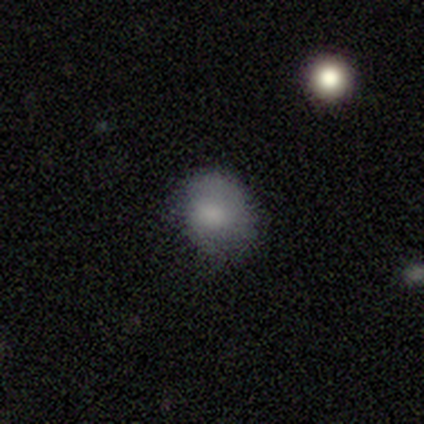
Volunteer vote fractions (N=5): smooth_or_featured: smooth (p=1.00)
how_rounded: round (p=1.00)
merging: none (p=0.60) [alt: minor disturbance p=0.40]